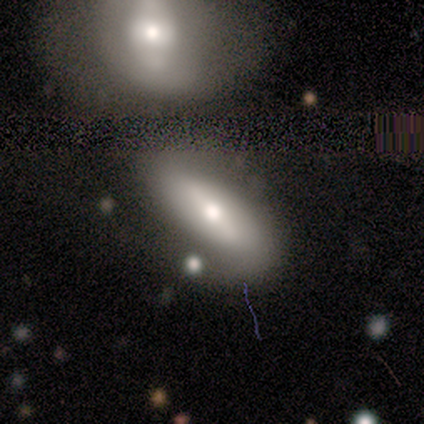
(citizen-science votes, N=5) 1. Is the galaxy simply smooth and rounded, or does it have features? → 80% featured or disk, 20% smooth, 0% star or artifact.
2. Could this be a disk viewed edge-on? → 100% no, 0% yes.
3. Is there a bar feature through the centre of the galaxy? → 50% strong (tied), 50% weak (tied), 0% no.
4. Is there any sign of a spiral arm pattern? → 100% no, 0% yes.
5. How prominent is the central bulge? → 75% moderate, 25% large, 0% dominant, 0% small, 0% none.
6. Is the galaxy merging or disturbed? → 40% merger, 20% none, 20% minor disturbance, 20% major disturbance.